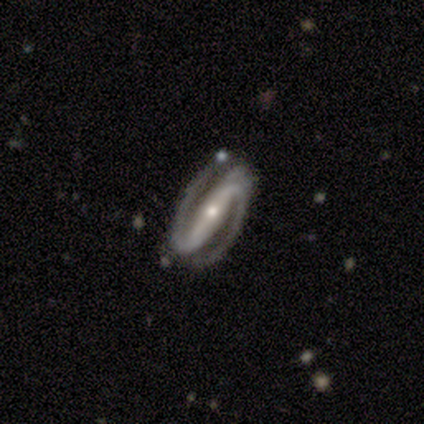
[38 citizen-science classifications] Volunteers were most divided on "spiral winding": tight: 45%, medium: 36%, loose: 18%. More confident: spiral arms — yes (100%); spiral arm count — 2 (97%); smooth or featured — featured or disk (95%); edge-on disk — no (92%); bar — strong (79%); merging — none (75%); bulge size — small (61%).